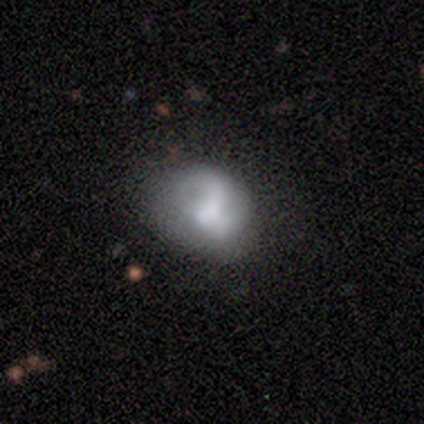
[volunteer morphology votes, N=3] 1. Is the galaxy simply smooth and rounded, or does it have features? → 67% featured or disk, 33% smooth, 0% star or artifact.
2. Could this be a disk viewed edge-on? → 100% no, 0% yes.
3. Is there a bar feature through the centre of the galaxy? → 100% no, 0% strong, 0% weak.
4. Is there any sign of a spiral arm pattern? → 100% no, 0% yes.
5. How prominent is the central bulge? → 50% moderate (tied), 50% none (tied), 0% dominant, 0% large, 0% small.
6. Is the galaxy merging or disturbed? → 67% none, 33% minor disturbance, 0% major disturbance, 0% merger.